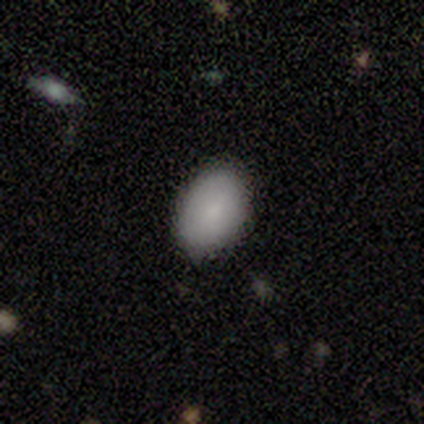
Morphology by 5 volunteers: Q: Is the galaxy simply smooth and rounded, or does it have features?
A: smooth — 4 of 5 (80%).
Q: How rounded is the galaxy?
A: in between — 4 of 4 (100%).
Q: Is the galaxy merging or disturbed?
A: none — 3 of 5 (60%).